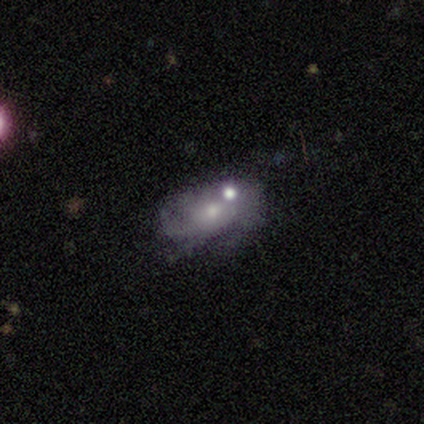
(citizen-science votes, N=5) Smooth or featured? smooth (40%, tied with featured or disk)
How rounded? in between (100%)
Merging? none (50%)